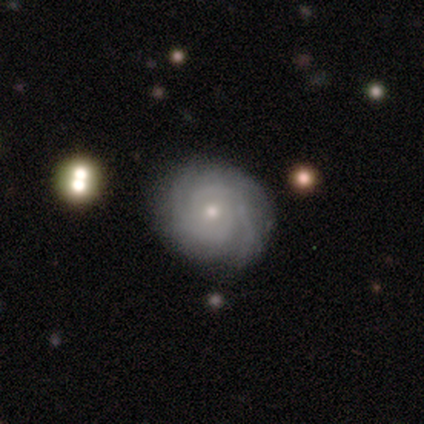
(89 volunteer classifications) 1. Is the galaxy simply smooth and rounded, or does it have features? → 79% featured or disk, 15% smooth, 7% star or artifact.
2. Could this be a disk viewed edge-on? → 100% no, 0% yes.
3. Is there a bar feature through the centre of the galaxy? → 77% no, 17% weak, 6% strong.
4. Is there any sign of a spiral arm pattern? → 96% yes, 4% no.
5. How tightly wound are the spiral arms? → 79% tight, 12% medium, 9% loose.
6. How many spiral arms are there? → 48% 2, 24% can't tell, 21% 3, 4% more than 4, 1% 1, 1% 4.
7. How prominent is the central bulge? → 67% small, 27% moderate, 6% none, 0% dominant, 0% large.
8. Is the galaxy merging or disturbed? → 86% none, 10% minor disturbance, 5% major disturbance, 0% merger.